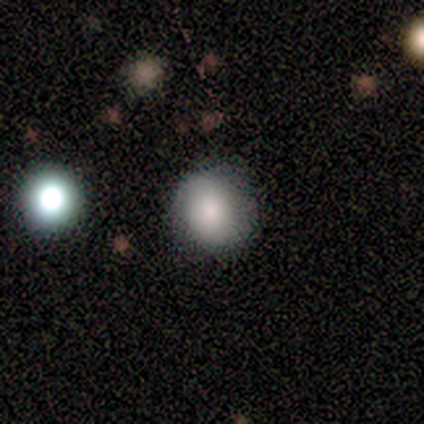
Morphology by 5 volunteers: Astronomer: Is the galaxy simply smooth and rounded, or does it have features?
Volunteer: smooth — 80%.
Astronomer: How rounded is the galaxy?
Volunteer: round — 50%, tied with in between at 50%.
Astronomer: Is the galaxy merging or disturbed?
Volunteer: none — 60% (runner-up: minor disturbance, 40%).